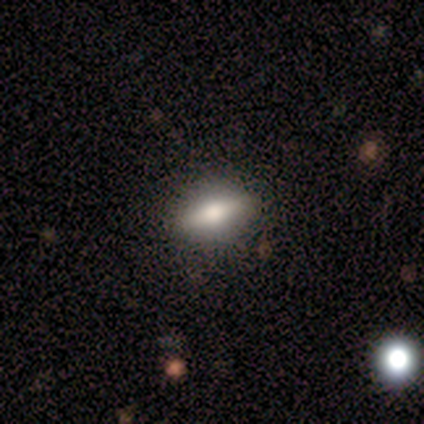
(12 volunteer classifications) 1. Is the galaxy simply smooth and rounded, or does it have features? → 58% smooth, 33% featured or disk, 8% star or artifact.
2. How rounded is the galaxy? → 57% in between, 29% cigar-shaped, 14% round.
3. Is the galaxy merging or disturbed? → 82% none, 9% minor disturbance, 9% major disturbance, 0% merger.